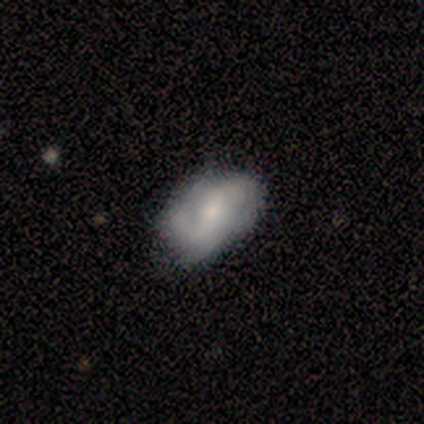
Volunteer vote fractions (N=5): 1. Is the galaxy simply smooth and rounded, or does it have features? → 100% featured or disk, 0% smooth, 0% star or artifact.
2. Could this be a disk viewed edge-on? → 100% no, 0% yes.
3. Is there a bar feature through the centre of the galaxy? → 40% strong (tied), 40% no (tied), 20% weak.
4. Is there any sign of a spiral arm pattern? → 100% yes, 0% no.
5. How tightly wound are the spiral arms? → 40% tight (tied), 40% medium (tied), 20% loose.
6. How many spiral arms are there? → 80% 2, 20% can't tell, 0% 1, 0% 3, 0% 4, 0% more than 4.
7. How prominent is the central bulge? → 80% moderate, 20% small, 0% dominant, 0% large, 0% none.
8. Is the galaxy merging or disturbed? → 80% none, 20% minor disturbance, 0% major disturbance, 0% merger.